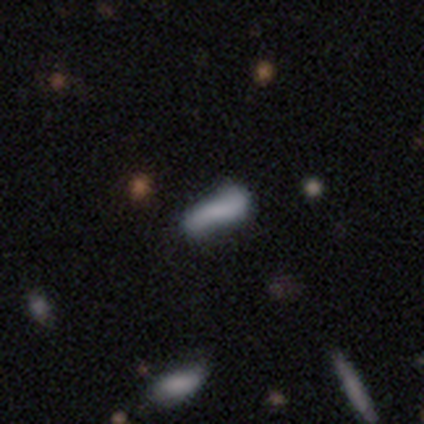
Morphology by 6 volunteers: Overall: smooth (50%; star or artifact 33%). How rounded: cigar-shaped (100%). Merging: minor disturbance (50%, tied with major disturbance).